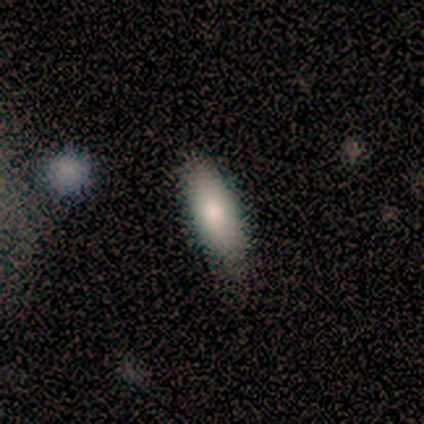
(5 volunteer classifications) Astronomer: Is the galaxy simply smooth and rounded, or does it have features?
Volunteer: smooth — 100%.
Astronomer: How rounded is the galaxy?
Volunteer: in between — 80%.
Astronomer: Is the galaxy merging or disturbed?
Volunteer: none — 60% (runner-up: minor disturbance, 40%).